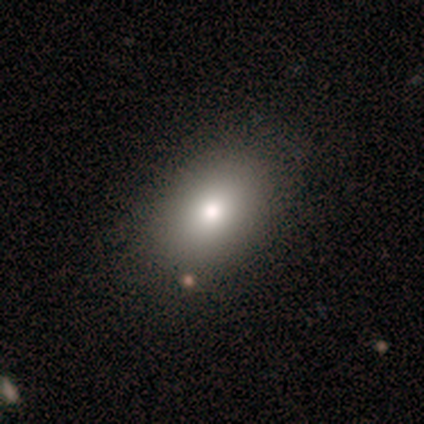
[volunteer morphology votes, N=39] type=smooth (87%); roundness=in between (82%); merging=none (83%).